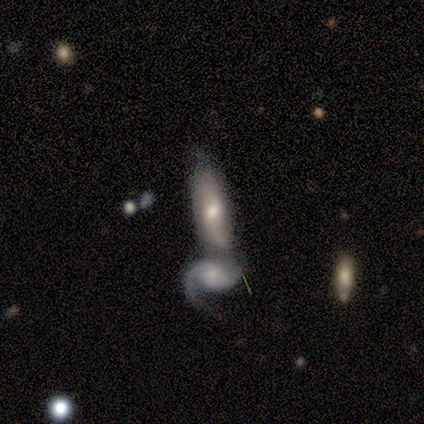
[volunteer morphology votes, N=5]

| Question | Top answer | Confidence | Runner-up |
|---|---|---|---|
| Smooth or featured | featured or disk | 80% | smooth (20%) |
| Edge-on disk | no | 100% | — |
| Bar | no | 75% | weak (25%) |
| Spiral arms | yes | 75% | no (25%) |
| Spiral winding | tight | 33% | tied: medium (33%), loose (33%) |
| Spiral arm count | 1 | 33% | tied: 2 (33%), can't tell (33%) |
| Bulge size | moderate | 50% | tied: small (50%) |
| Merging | none | 40% | tied: merger (40%) |